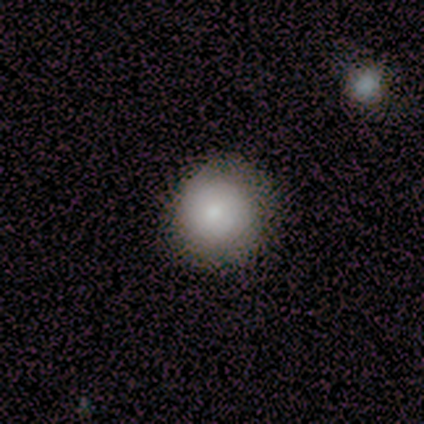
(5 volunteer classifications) This is clearly a smooth galaxy (100%). How rounded: clearly round (100%). Merging: likely none (60%).